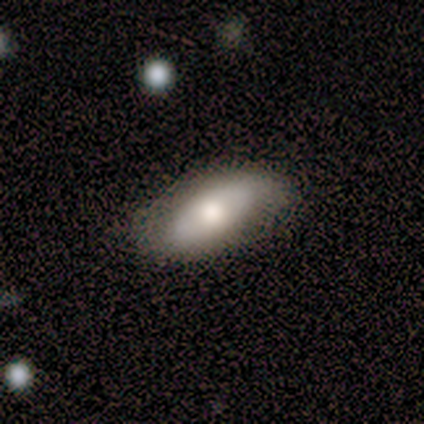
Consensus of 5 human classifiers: smooth 80%, featured or disk 20%, star or artifact 0%. Down the decision tree: how rounded — in between (100%); merging — none (60%).